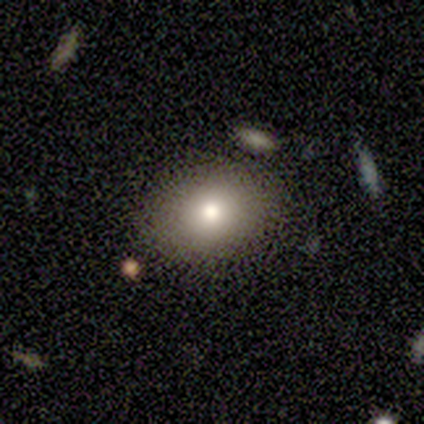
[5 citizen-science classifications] A smooth galaxy with no disk features (100%) that is round (60%). Merging: none (100%).